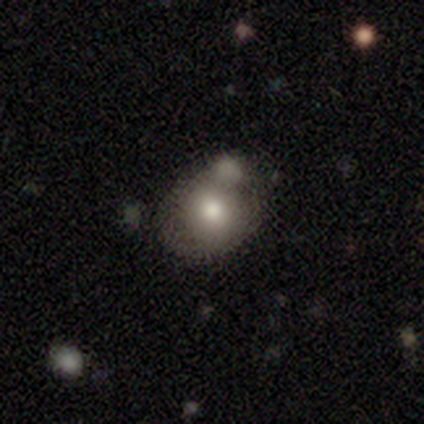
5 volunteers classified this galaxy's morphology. Volunteers were most divided on "merging": none: 60%, minor disturbance: 20%, merger: 20%, major disturbance: 0%. More confident: smooth or featured — smooth (100%); how rounded — round (80%).